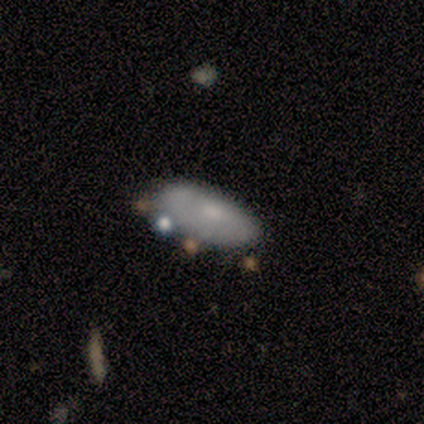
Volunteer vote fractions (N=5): smooth_or_featured: featured or disk (p=0.60) [alt: smooth p=0.40]
disk_edge_on: no (p=0.67) [alt: yes p=0.33]
bar: no (p=1.00)
has_spiral_arms: no (p=1.00)
bulge_size: small (p=1.00)
merging: minor disturbance (p=0.60) [alt: none p=0.20]